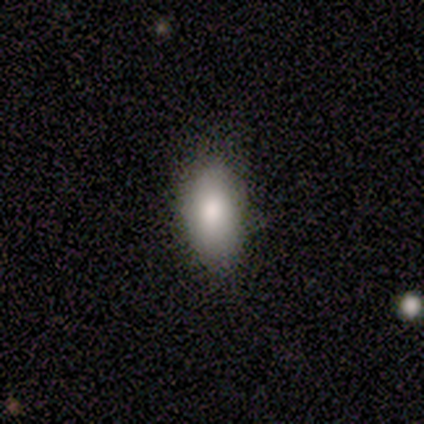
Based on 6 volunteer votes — A smooth galaxy with no disk features (100%) that is in between round and cigar-shaped (83%).

Vote fractions:
- Smooth or featured? smooth: 100% / featured or disk: 0% / star or artifact: 0%
- How rounded? in between: 83% / cigar-shaped: 17% / round: 0%
- Merging? none: 100% / minor disturbance: 0% / major disturbance: 0% / merger: 0%